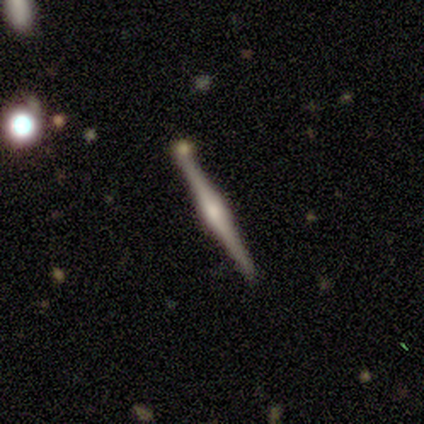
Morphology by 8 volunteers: A featured or disk galaxy (75%) viewed edge-on (100%) with a rounded central bulge (83%).

Vote fractions:
- Smooth or featured? featured or disk: 75% / smooth: 12% / star or artifact: 12%
- Edge-on disk? yes: 100% / no: 0%
- Edge-on bulge? rounded: 83% / boxy: 17% / none: 0%
- Merging? none: 43% (tied) / merger: 43% (tied) / minor disturbance: 14% / major disturbance: 0%